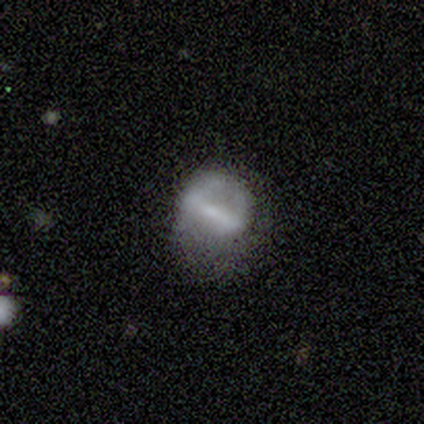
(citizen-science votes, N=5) Smooth or featured: featured or disk — 60% (smooth — 40%)
Edge-on disk: no — 67% (yes — 33%)
Bar: strong — 100%
Spiral arms: no — 100%
Bulge size: moderate — 50% (tied with none — 50%)
Merging: none — 40% (tied with major disturbance — 40%)